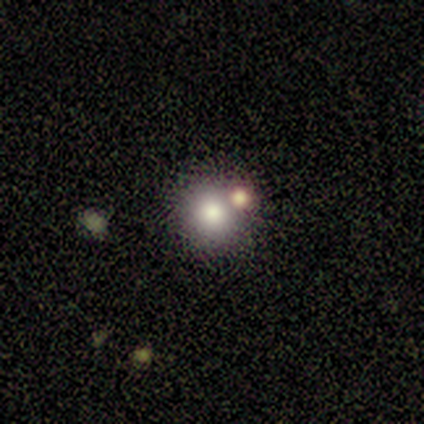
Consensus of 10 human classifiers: Smooth or featured?
  - smooth: 80% *
  - featured or disk: 10%
  - star or artifact: 10%
How rounded?
  - round: 100% *
  - in between: 0%
  - cigar-shaped: 0%
Merging?
  - none: 78% *
  - merger: 22%
  - minor disturbance: 0%
  - major disturbance: 0%